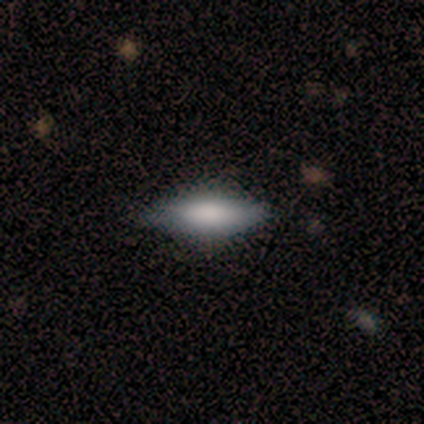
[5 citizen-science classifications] Morphology: type=smooth (80%); roundness=in between (75%); merging=none (60%).